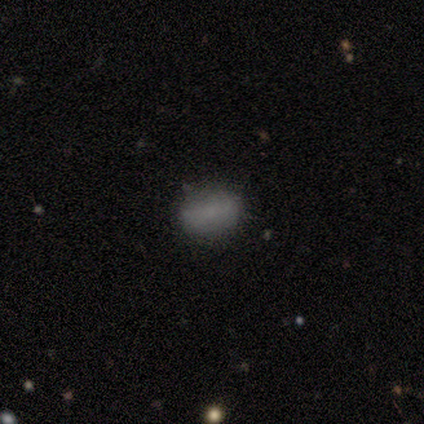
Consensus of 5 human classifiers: Smooth or featured? smooth (100%)
How rounded? in between (100%)
Merging? minor disturbance (60%)